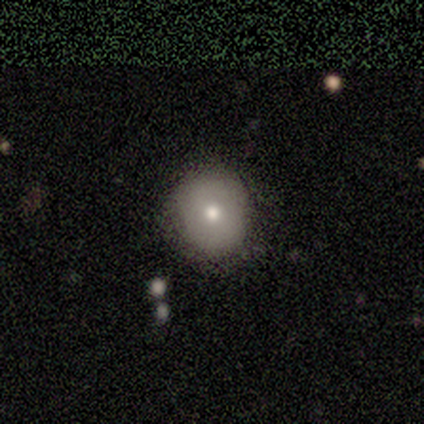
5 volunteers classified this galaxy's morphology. A smooth galaxy with no disk features (80%) that is round (100%). Merging: none (80%).